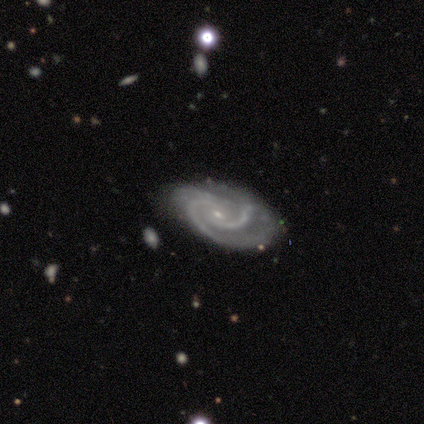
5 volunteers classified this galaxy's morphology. Overall: featured or disk (100%). Edge-on disk: no (100%). Bar: weak (60%; no 40%). Spiral arms: yes (100%). Spiral arm count: 2 (100%). Spiral winding: tight (60%; medium 40%). Bulge size: small (60%; moderate 40%). Merging: none (100%).